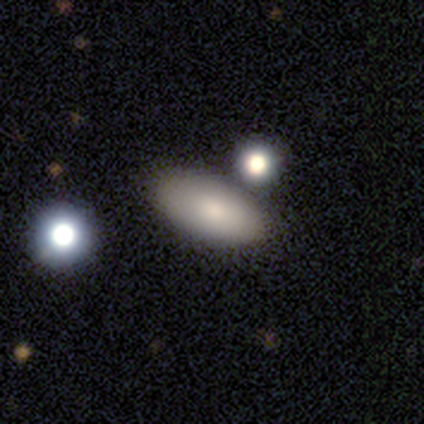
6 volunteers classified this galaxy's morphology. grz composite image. It shows a smooth galaxy with no disk features (83%) that is in between round and cigar-shaped (100%). Merging: none (60%).